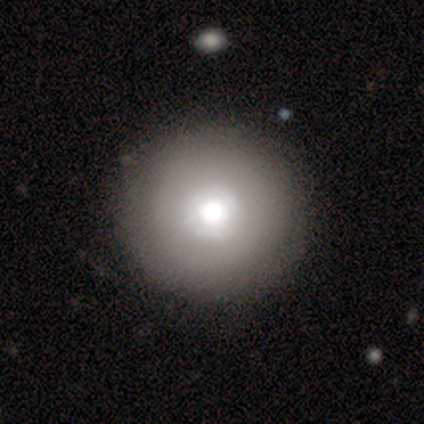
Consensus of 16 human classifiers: smooth-or-featured: smooth: 81% | featured or disk: 19% | star or artifact: 0%
  how-rounded: round: 92% | in between: 8% | cigar-shaped: 0%
  merging: none: 81% | minor disturbance: 19% | major disturbance: 0% | merger: 0%